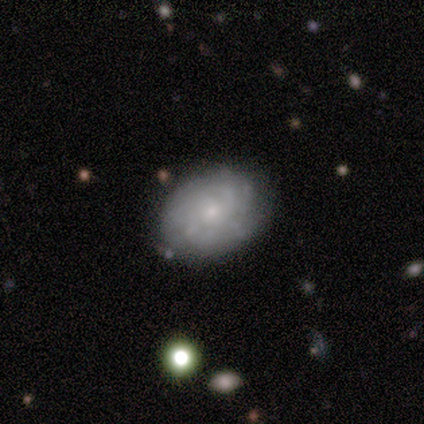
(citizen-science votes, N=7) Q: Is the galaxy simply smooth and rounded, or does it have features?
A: featured or disk — 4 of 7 (57%).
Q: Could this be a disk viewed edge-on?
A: no — 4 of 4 (100%).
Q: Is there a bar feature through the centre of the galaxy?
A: no — 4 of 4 (100%).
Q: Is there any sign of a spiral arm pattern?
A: yes — 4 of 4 (100%).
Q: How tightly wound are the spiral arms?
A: tight — 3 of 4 (75%).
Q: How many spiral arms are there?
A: can't tell — 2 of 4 (50%).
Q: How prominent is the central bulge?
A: small — 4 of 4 (100%).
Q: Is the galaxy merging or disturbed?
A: none — 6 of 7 (86%).